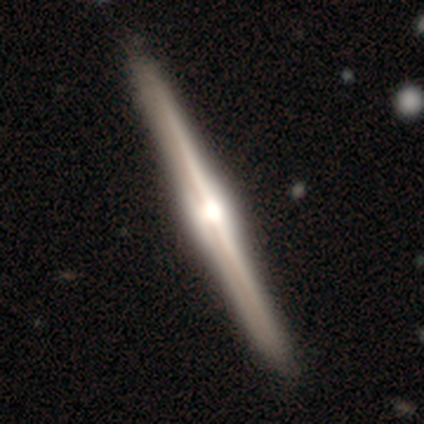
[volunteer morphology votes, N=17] Smooth or featured? featured or disk (94%)
Edge-on disk? yes (100%)
Edge-on bulge? rounded (94%)
Merging? none (100%)